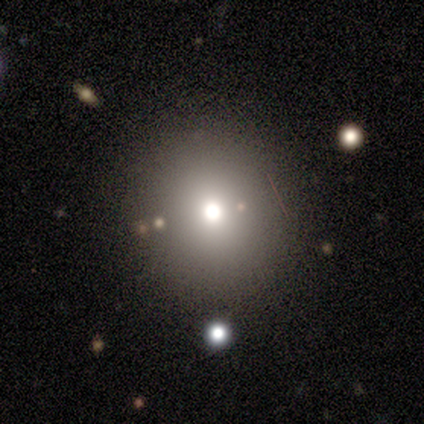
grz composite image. It shows a smooth galaxy with no disk features (50%, tied with featured or disk) that is round (100%). Merging: none (100%).